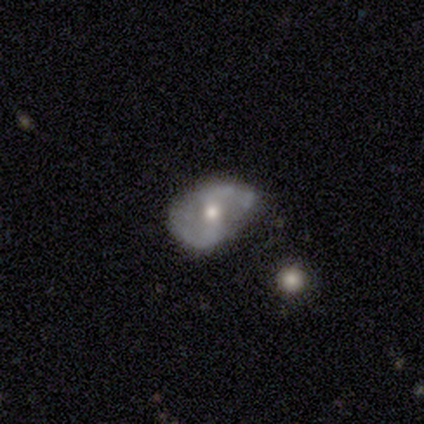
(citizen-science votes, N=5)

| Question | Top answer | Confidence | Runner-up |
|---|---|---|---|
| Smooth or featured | featured or disk | 60% | smooth (40%) |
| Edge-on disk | no | 100% | — |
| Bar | no | 100% | — |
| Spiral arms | yes | 67% | no (33%) |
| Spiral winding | tight | 50% | tied: loose (50%) |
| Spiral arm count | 2 | 100% | — |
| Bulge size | moderate | 100% | — |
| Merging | minor disturbance | 60% | none (40%) |